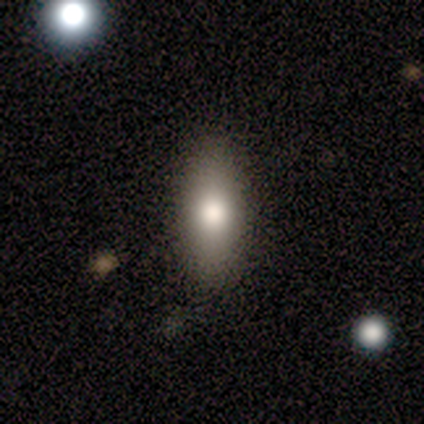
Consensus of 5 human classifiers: Smooth or featured? 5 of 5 (100%) said smooth. How rounded? 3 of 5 (60%) said in between. Merging? 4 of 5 (80%) said none.